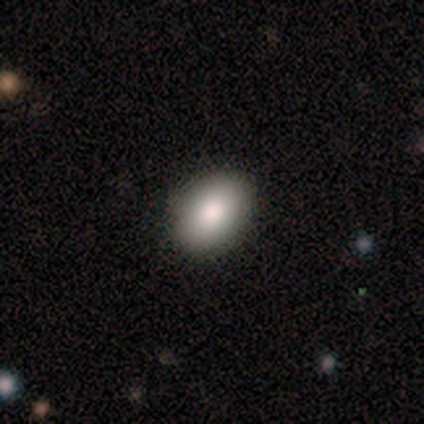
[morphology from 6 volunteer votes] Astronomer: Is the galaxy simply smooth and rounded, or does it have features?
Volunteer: smooth — 100%.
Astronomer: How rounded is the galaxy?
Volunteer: in between — 83%.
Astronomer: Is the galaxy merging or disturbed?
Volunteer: none — 83%.